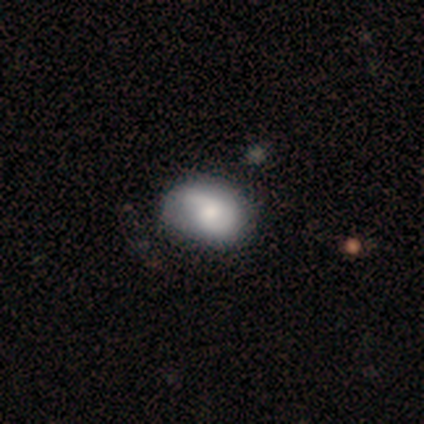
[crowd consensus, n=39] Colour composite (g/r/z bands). It shows a featured or disk galaxy (59%) with no bar (78%), 2 (74%) medium (37%, tied with loose) spiral arms (83%) and a moderate central bulge (61%). Merging: none (47%).